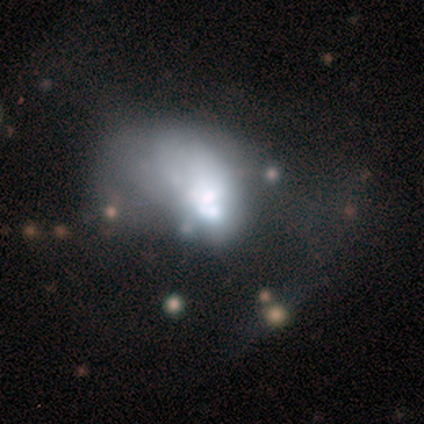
This is likely a featured or disk galaxy (60%). It is clearly not viewed edge-on (100%). Bar: clearly no (100%). Spiral arm pattern: clearly no (100%). Central bulge: marginally large (33%, tied with small and none). Merging: clearly major disturbance (80%).